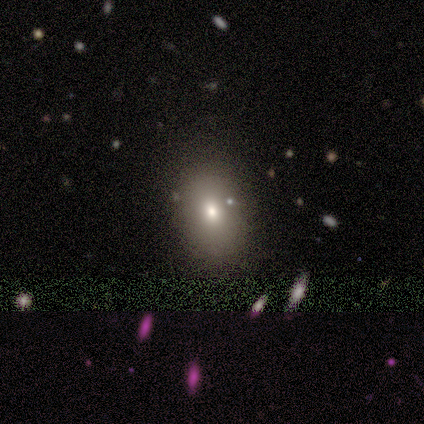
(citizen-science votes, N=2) This is possibly a smooth galaxy (50%, tied with featured or disk). How rounded: clearly in between (100%). Merging: clearly none (100%).